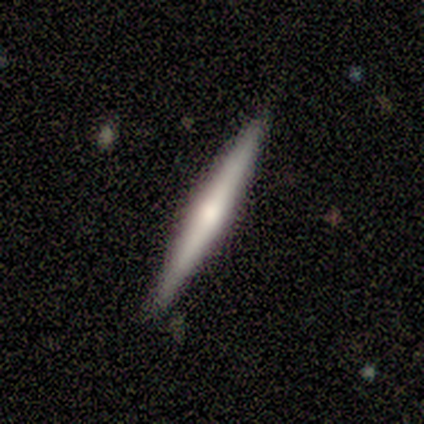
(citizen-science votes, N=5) Volunteers were most divided on "smooth or featured": featured or disk: 60%, smooth: 40%, star or artifact: 0%. More confident: edge-on disk — yes (100%); merging — none (80%); edge-on bulge — rounded (67%).